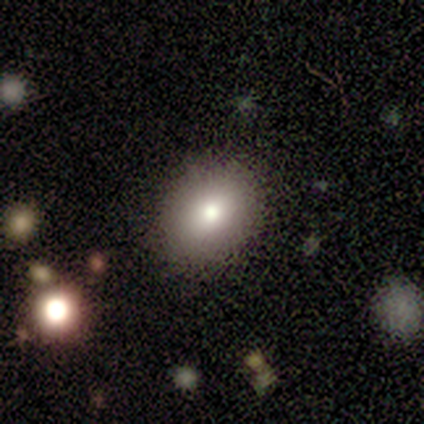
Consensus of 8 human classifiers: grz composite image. It shows a smooth galaxy with no disk features (88%) that is in between round and cigar-shaped (71%). Merging: none (71%).